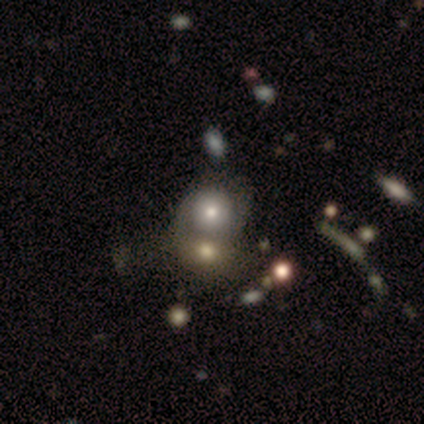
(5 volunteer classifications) smooth-or-featured: smooth: 40% (tied) | featured or disk: 40% (tied) | star or artifact: 20%
  how-rounded: round: 100% | in between: 0% | cigar-shaped: 0%
  merging: merger: 75% | none: 25% | minor disturbance: 0% | major disturbance: 0%